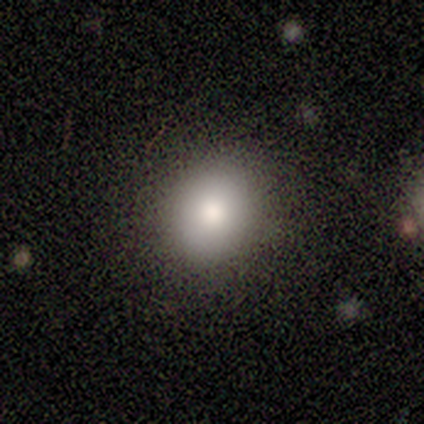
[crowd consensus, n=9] Smooth or featured? 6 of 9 (67%) said smooth. How rounded? 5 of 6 (83%) said round. Merging? 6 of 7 (86%) said none.